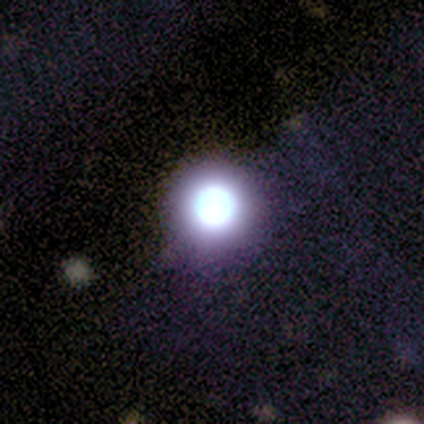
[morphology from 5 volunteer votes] smooth-or-featured: smooth: 60% | featured or disk: 20% | star or artifact: 20%
  how-rounded: round: 100% | in between: 0% | cigar-shaped: 0%
  merging: none: 75% | minor disturbance: 25% | major disturbance: 0% | merger: 0%